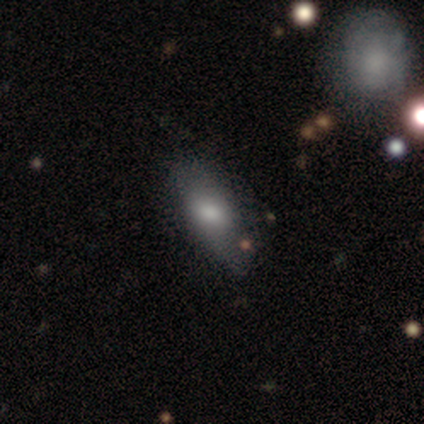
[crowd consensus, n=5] Volunteers were most divided on "how rounded": in between: 80%, cigar-shaped: 20%, round: 0%. More confident: smooth or featured — smooth (100%); merging — none (80%).